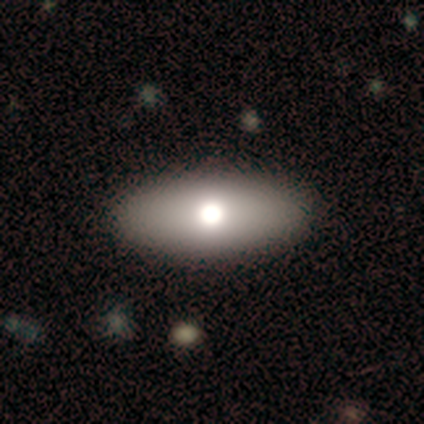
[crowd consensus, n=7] A smooth galaxy with no disk features (71%) that is in between round and cigar-shaped (100%).

Vote fractions:
- Smooth or featured? smooth: 71% / featured or disk: 29% / star or artifact: 0%
- How rounded? in between: 100% / round: 0% / cigar-shaped: 0%
- Merging? none: 86% / minor disturbance: 14% / major disturbance: 0% / merger: 0%